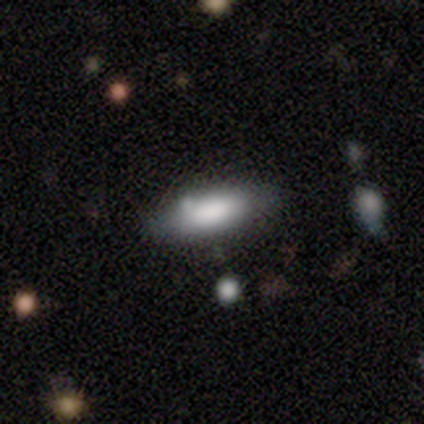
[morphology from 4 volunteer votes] A smooth galaxy with no disk features (75%) that is in between round and cigar-shaped (100%). Merging: none (75%).